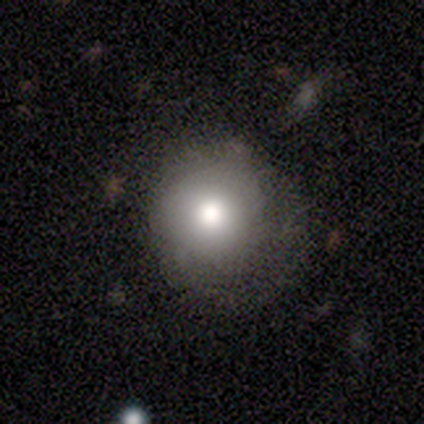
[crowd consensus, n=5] Q: Smooth or featured?
A: smooth (100%)
Q: How rounded?
A: round (100%)
Q: Merging?
A: none (80%); runner-up: minor disturbance (20%)